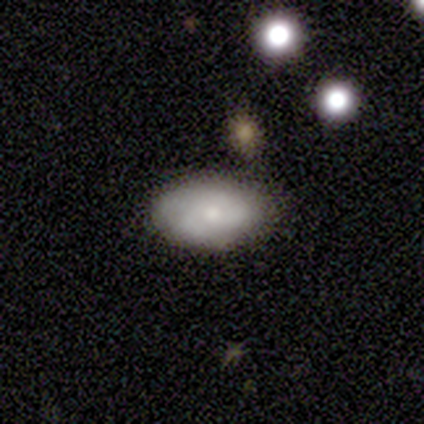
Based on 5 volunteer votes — Volunteers were most divided on "smooth or featured": smooth: 80%, star or artifact: 20%, featured or disk: 0%. More confident: how rounded — in between (100%); merging — none (100%).